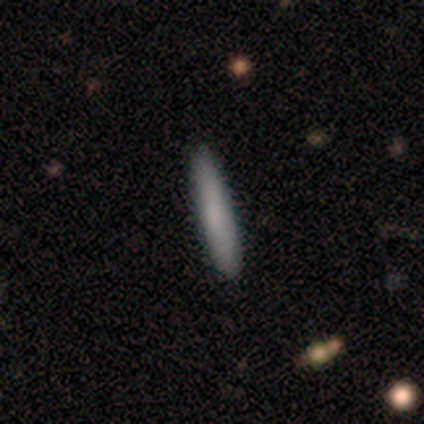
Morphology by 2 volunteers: smooth-or-featured: smooth: 100% | featured or disk: 0% | star or artifact: 0%
  how-rounded: cigar-shaped: 100% | round: 0% | in between: 0%
  merging: none: 100% | minor disturbance: 0% | major disturbance: 0% | merger: 0%